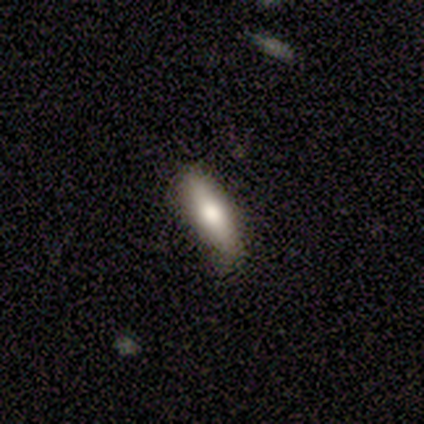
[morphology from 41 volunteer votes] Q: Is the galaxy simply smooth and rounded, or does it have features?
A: smooth — 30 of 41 (73%).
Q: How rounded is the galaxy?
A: cigar-shaped — 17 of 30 (57%).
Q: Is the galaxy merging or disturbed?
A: none — 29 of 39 (74%).